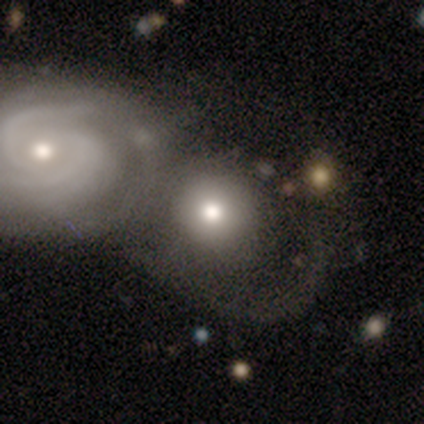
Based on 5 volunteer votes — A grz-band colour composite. It shows a featured or disk galaxy (40%, tied with star or artifact) with no bar (100%), 2 (100%) tight (100%) spiral arms (50%, tied with no) and a moderate central bulge (100%). Merging: merger (67%).